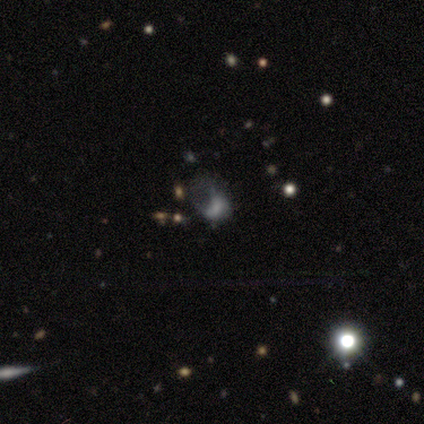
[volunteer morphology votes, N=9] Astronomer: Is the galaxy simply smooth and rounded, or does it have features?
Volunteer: smooth — 56% (runner-up: featured or disk, 44%).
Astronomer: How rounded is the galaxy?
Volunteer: in between — 80%.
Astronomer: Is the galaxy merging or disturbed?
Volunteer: major disturbance — 89%.